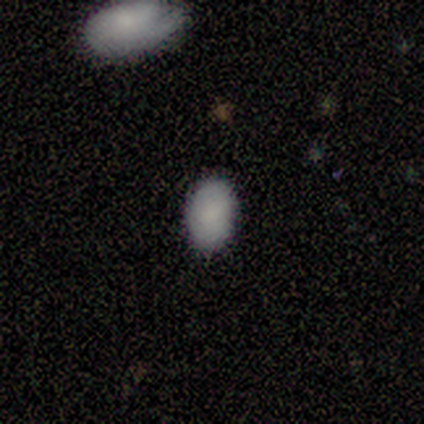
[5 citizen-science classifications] A smooth galaxy with no disk features (80%) that is in between round and cigar-shaped (100%). Merging: none (100%).